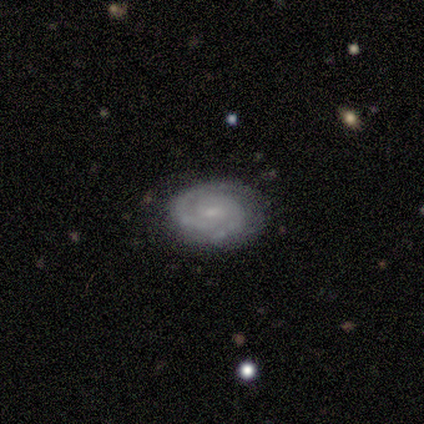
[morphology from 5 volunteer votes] smooth-or-featured: featured or disk: 80% | smooth: 20% | star or artifact: 0%
  disk-edge-on: no: 100% | yes: 0%
    bar: weak: 75% | no: 25% | strong: 0%
    has-spiral-arms: yes: 100% | no: 0%
      spiral-winding: tight: 100% | medium: 0% | loose: 0%
      spiral-arm-count: 2: 100% | 1: 0% | 3: 0% | 4: 0% | more than 4: 0% | can't tell: 0%
    bulge-size: small: 100% | dominant: 0% | large: 0% | moderate: 0% | none: 0%
  merging: none: 100% | minor disturbance: 0% | major disturbance: 0% | merger: 0%